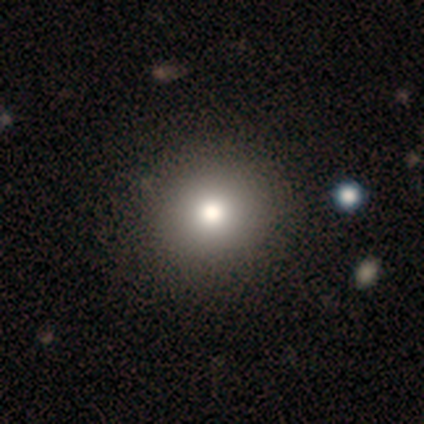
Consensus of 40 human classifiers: smooth-or-featured: smooth: 82% | featured or disk: 15% | star or artifact: 2%
  how-rounded: round: 88% | in between: 9% | cigar-shaped: 3%
  merging: none: 59% | merger: 5% | minor disturbance: 0% | major disturbance: 0%